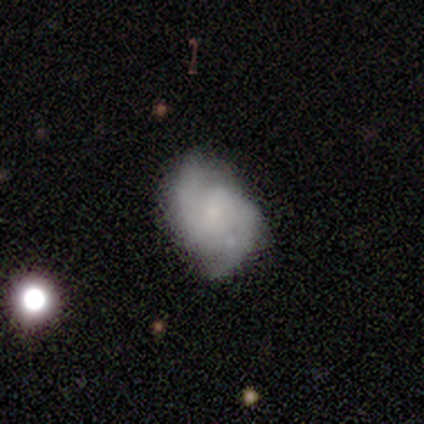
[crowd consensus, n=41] smooth-or-featured: featured or disk: 80% | smooth: 12% | star or artifact: 7%
  disk-edge-on: no: 100% | yes: 0%
    bar: weak: 45% (tied) | no: 45% (tied) | strong: 9%
    has-spiral-arms: yes: 88% | no: 12%
      spiral-winding: medium: 59% | tight: 24% | loose: 17%
      spiral-arm-count: 2: 90% | 3: 7% | can't tell: 3% | 1: 0% | 4: 0% | more than 4: 0%
    bulge-size: small: 58% | none: 21% | moderate: 18% | large: 3% | dominant: 0%
  merging: none: 50% | minor disturbance: 37% | major disturbance: 11% | merger: 3%